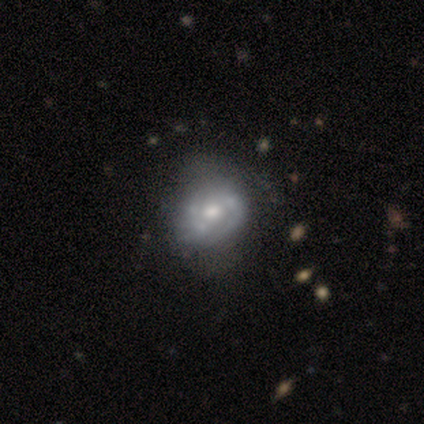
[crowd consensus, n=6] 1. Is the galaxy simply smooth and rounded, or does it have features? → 100% featured or disk, 0% smooth, 0% star or artifact.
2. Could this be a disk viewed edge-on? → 100% no, 0% yes.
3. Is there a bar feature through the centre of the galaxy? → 50% weak (tied), 50% no (tied), 0% strong.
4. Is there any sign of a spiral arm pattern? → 67% no, 33% yes.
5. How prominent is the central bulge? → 67% moderate, 33% small, 0% dominant, 0% large, 0% none.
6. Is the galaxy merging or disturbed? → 67% minor disturbance, 17% none, 17% major disturbance, 0% merger.